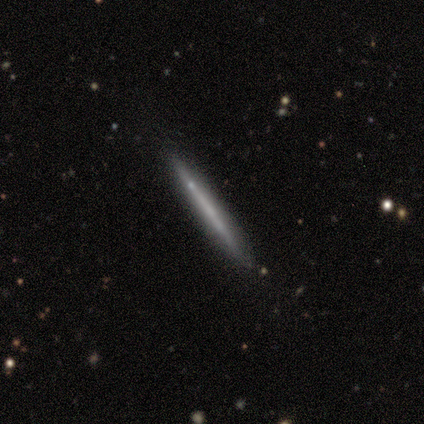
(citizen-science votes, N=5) smooth_or_featured: featured or disk (p=0.60) [alt: smooth p=0.40]
disk_edge_on: yes (p=1.00)
edge_on_bulge: none (p=1.00)
merging: none (p=1.00)